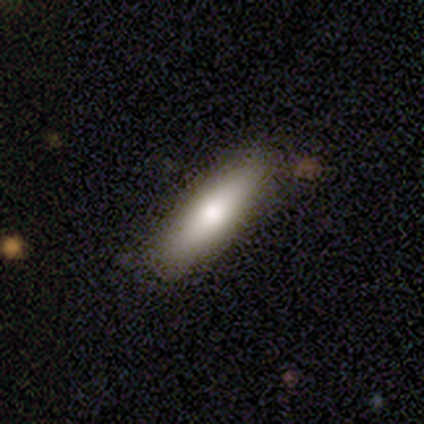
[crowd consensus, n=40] This appears to be a smooth galaxy with no disk features (62%) that is cigar-shaped (68%). Merging: none (78%).